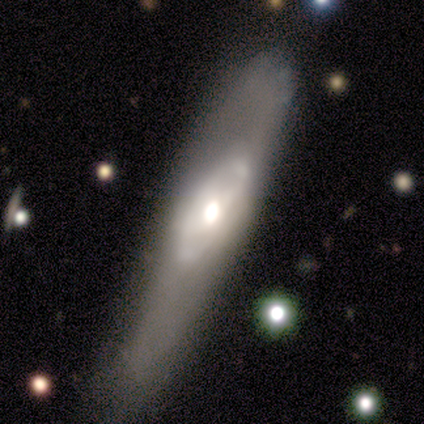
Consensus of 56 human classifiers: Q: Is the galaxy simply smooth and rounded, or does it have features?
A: featured or disk — 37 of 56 (66%).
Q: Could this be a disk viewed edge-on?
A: no — 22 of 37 (59%).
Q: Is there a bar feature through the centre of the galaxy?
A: no — 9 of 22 (41%).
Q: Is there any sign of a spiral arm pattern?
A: no — 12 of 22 (55%).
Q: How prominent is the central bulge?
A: large — 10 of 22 (45%).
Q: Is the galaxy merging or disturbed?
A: none — 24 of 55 (44%).